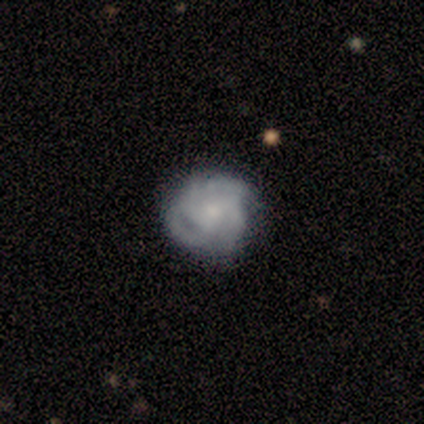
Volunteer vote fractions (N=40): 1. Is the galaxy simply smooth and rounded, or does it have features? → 65% featured or disk, 30% smooth, 5% star or artifact.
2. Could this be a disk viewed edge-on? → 100% no, 0% yes.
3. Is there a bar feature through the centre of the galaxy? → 65% no, 27% weak, 8% strong.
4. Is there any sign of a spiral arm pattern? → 96% yes, 4% no.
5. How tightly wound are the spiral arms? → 72% tight, 16% loose, 12% medium.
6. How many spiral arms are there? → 44% 4, 40% 3, 16% can't tell, 0% 1, 0% 2, 0% more than 4.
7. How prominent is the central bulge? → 42% moderate (tied), 42% small (tied), 15% none, 0% dominant, 0% large.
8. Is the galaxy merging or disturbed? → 79% none, 18% minor disturbance, 3% major disturbance, 0% merger.